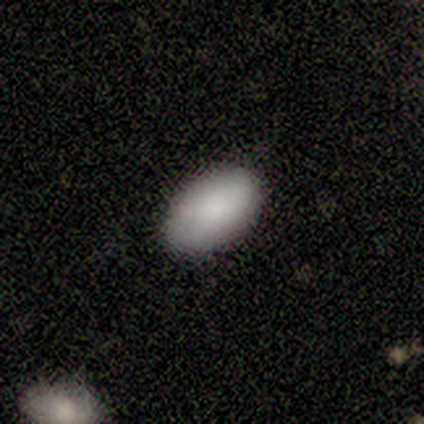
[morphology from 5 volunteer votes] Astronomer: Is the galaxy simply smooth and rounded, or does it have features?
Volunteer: smooth — 100%.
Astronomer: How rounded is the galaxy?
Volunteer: in between — 100%.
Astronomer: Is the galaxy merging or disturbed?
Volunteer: none — 80%.